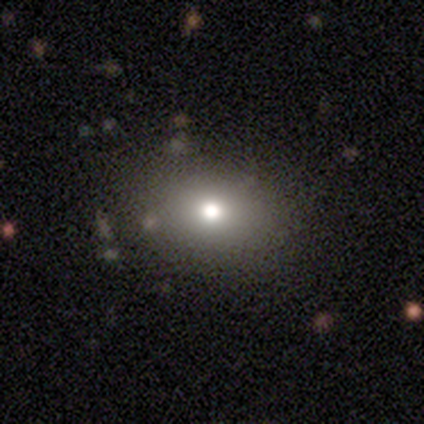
smooth 85%, star or artifact 10%, featured or disk 5%. Down the decision tree: how rounded — in between (65%); merging — none (61%).